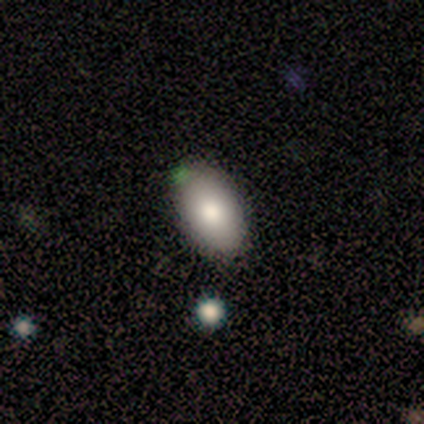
A smooth galaxy with no disk features (75%) that is in between round and cigar-shaped (93%).

Vote fractions:
- Smooth or featured? smooth: 75% / star or artifact: 15% / featured or disk: 10%
- How rounded? in between: 93% / round: 7% / cigar-shaped: 0%
- Merging? none: 79% / minor disturbance: 18% / major disturbance: 3% / merger: 0%